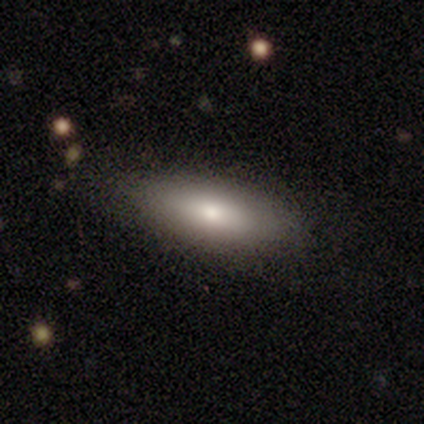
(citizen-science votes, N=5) smooth-or-featured: smooth: 80% | star or artifact: 20% | featured or disk: 0%
  how-rounded: in between: 100% | round: 0% | cigar-shaped: 0%
  merging: none: 100% | minor disturbance: 0% | major disturbance: 0% | merger: 0%